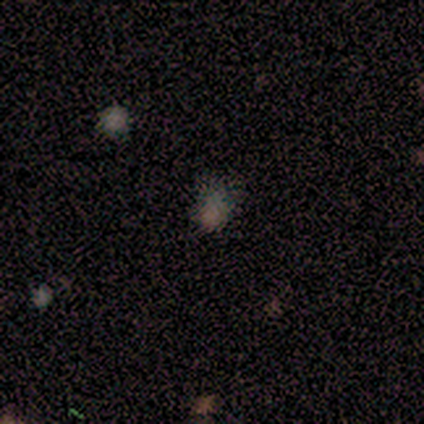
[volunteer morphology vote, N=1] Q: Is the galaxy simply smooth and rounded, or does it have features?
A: smooth — 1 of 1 (100%).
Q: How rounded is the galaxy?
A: round — 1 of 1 (100%).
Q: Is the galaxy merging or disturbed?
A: none — 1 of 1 (100%).